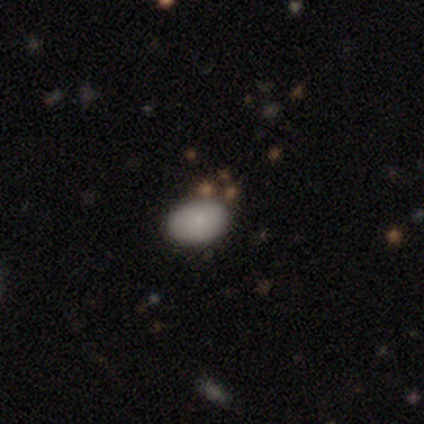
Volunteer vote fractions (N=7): Volunteers were most divided on "smooth or featured": smooth: 71%, featured or disk: 29%, star or artifact: 0%. More confident: merging — none (86%); how rounded — in between (80%).